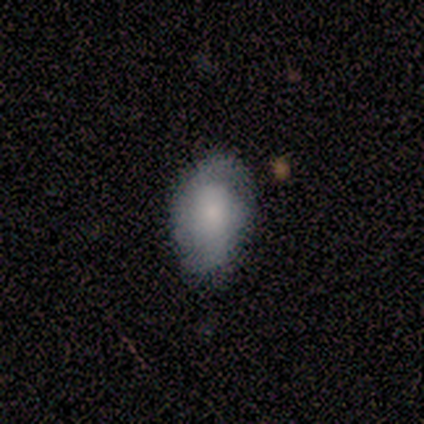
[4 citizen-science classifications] Q: Smooth or featured?
A: smooth (50%); tied with: featured or disk (50%)
Q: How rounded?
A: round (50%); tied with: in between (50%)
Q: Merging?
A: none (75%); runner-up: minor disturbance (25%)